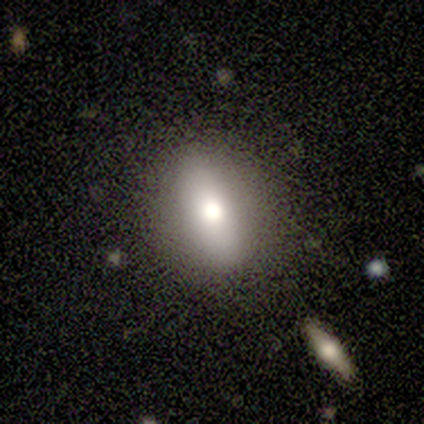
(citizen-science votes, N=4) Overall: smooth (75%). How rounded: in between (67%; round 33%). Merging: none (100%).